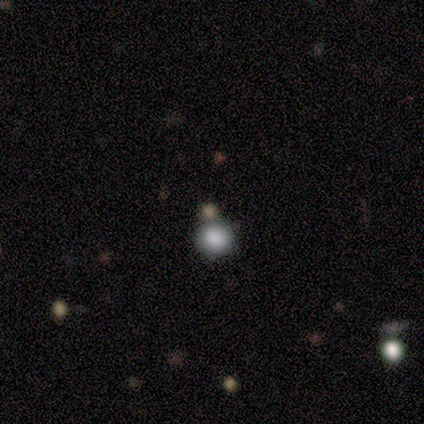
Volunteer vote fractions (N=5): This appears to be a smooth galaxy with no disk features (40%, tied with star or artifact) that is round (100%). Merging: none (67%).